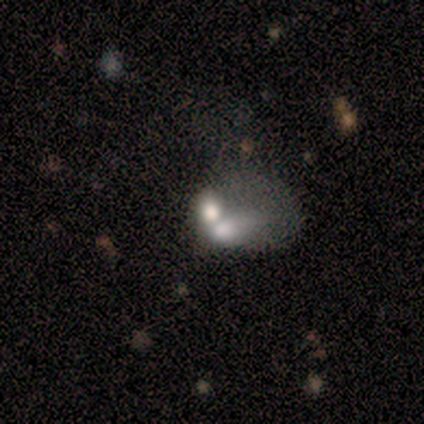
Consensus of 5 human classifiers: Overall: smooth (60%; featured or disk 40%). How rounded: round (67%; in between 33%). Merging: merger (60%; major disturbance 40%).